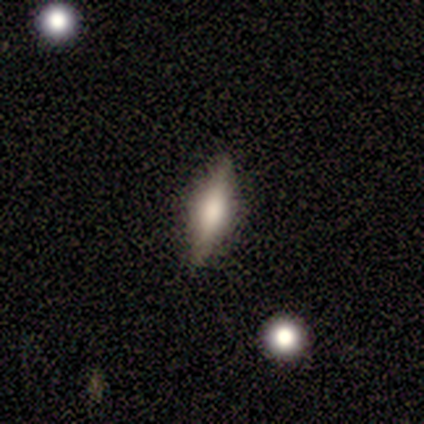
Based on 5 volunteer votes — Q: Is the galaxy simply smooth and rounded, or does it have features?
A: featured or disk — 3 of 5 (60%).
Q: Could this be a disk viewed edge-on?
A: yes — 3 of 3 (100%).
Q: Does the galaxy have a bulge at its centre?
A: rounded — 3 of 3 (100%).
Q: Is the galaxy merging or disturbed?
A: none — 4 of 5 (80%).